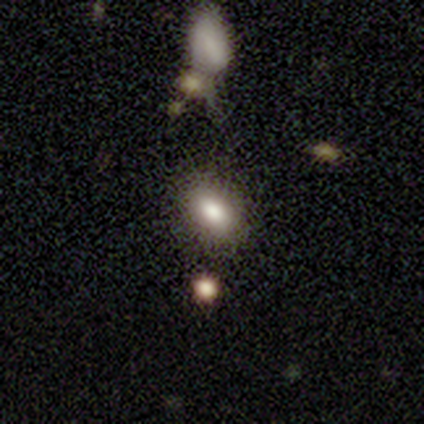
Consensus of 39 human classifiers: Smooth or featured: smooth — 82% (star or artifact — 10%)
How rounded: in between — 78% (round — 22%)
Merging: none — 91% (major disturbance — 6%)